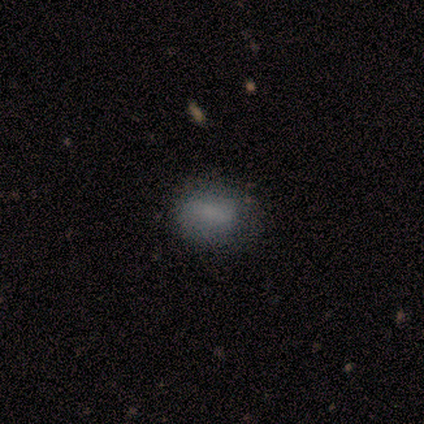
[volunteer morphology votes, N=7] Smooth or featured?
  - smooth: 86% *
  - star or artifact: 14%
  - featured or disk: 0%
How rounded?
  - round: 50% * (tied)
  - in between: 50% * (tied)
  - cigar-shaped: 0%
Merging?
  - none: 100% *
  - minor disturbance: 0%
  - major disturbance: 0%
  - merger: 0%